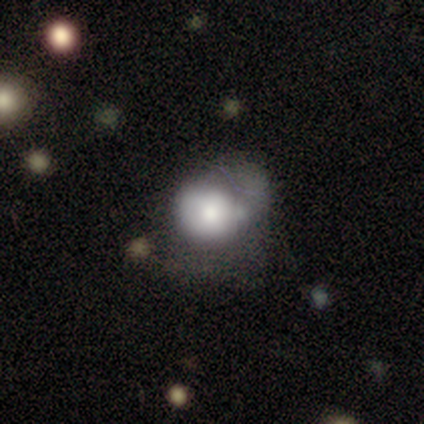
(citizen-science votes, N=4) Morphology: type=smooth (50%); roundness=round (100%); merging=major disturbance (67%).